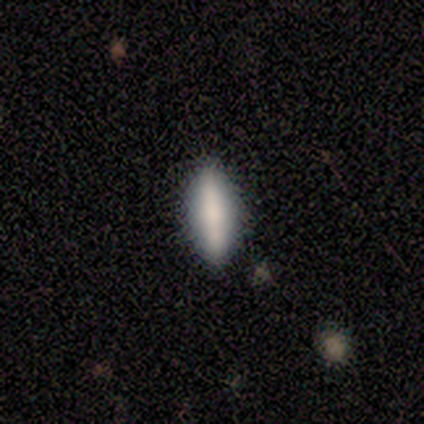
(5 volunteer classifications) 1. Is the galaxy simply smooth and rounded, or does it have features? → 80% smooth, 20% featured or disk, 0% star or artifact.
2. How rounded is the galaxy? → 75% cigar-shaped, 25% in between, 0% round.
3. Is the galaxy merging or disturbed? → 80% none, 20% minor disturbance, 0% major disturbance, 0% merger.